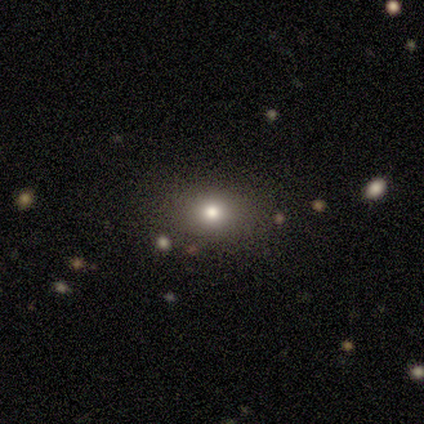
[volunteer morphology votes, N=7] Volunteers were most divided on "how rounded": round: 57%, in between: 43%, cigar-shaped: 0%. More confident: smooth or featured — smooth (100%); merging — none (100%).